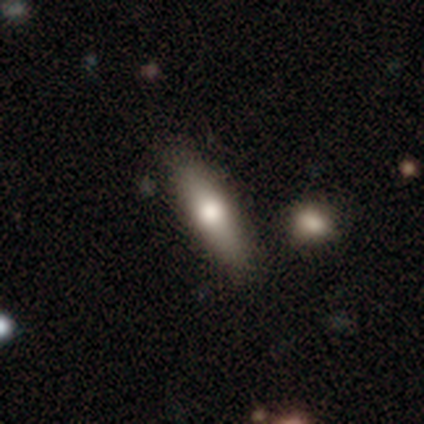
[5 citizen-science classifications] A smooth galaxy with no disk features (60%) that is in between round and cigar-shaped (67%).

Vote fractions:
- Smooth or featured? smooth: 60% / featured or disk: 40% / star or artifact: 0%
- How rounded? in between: 67% / cigar-shaped: 33% / round: 0%
- Merging? none: 40% (tied) / major disturbance: 40% (tied) / minor disturbance: 20% / merger: 0%